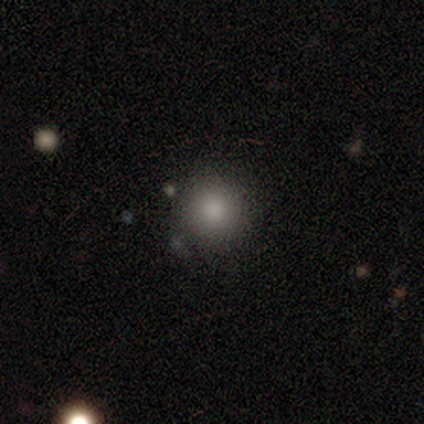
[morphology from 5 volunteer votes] Smooth or featured?
  - smooth: 80% *
  - star or artifact: 20%
  - featured or disk: 0%
How rounded?
  - round: 100% *
  - in between: 0%
  - cigar-shaped: 0%
Merging?
  - none: 75% *
  - minor disturbance: 25%
  - major disturbance: 0%
  - merger: 0%